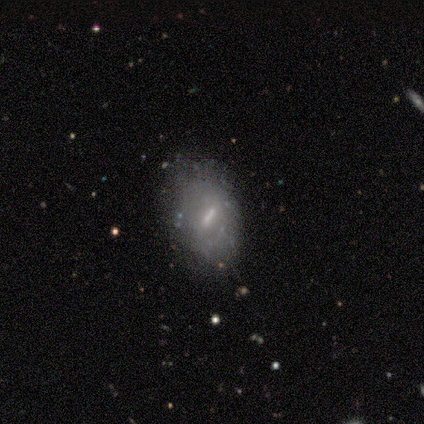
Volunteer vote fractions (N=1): Consensus on every question: smooth or featured — featured or disk (100%); edge-on disk — no (100%); bar — weak (100%); spiral arms — no (100%); bulge size — moderate (100%); merging — none (100%).